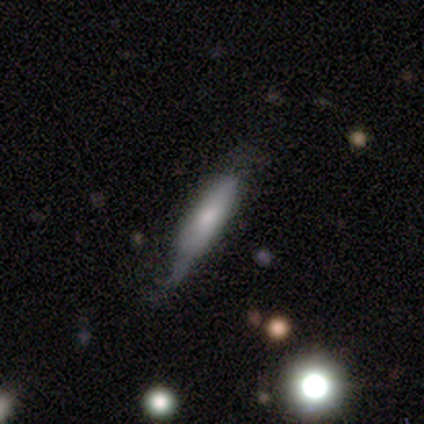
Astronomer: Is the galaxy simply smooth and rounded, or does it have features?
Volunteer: smooth — 60% (runner-up: featured or disk, 40%).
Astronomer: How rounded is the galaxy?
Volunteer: cigar-shaped — 67%.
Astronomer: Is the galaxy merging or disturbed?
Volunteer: none — 30% (runner-up: minor disturbance, 28%).